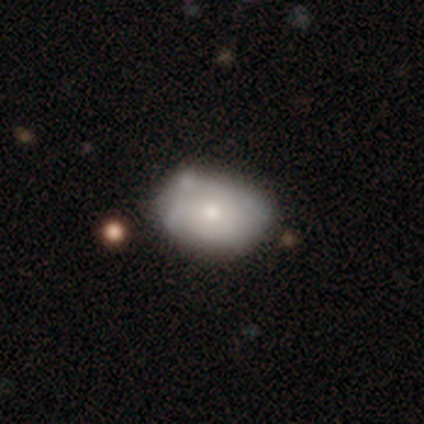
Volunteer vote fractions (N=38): Volunteers were most divided on "merging": none: 51%, minor disturbance: 43%, merger: 5%, major disturbance: 0%. More confident: how rounded — in between (78%); smooth or featured — smooth (61%).